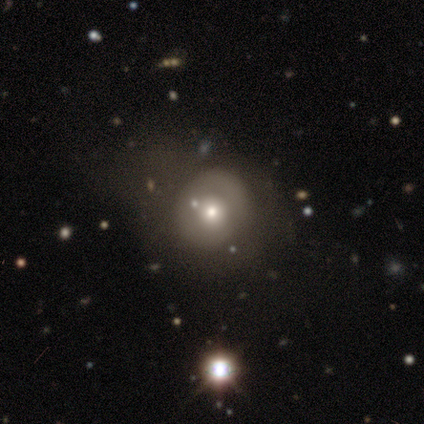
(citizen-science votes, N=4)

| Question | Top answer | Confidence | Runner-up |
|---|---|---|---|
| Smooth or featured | smooth | 75% | featured or disk (25%) |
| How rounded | round | 100% | — |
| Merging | none | 75% | major disturbance (25%) |